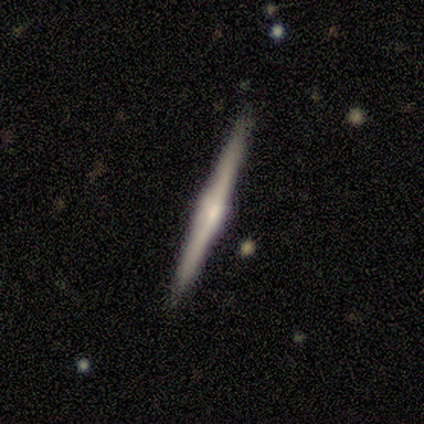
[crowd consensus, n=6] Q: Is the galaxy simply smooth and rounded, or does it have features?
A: featured or disk — 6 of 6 (100%).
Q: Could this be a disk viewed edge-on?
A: yes — 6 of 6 (100%).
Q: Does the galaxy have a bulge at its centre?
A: boxy — 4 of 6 (67%).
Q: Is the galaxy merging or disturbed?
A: none — 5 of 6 (83%).